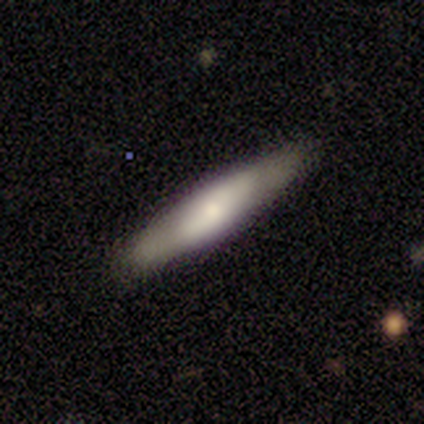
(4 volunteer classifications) Smooth or featured: smooth — 50% (tied with featured or disk — 50%)
How rounded: cigar-shaped — 100%
Merging: none — 100%